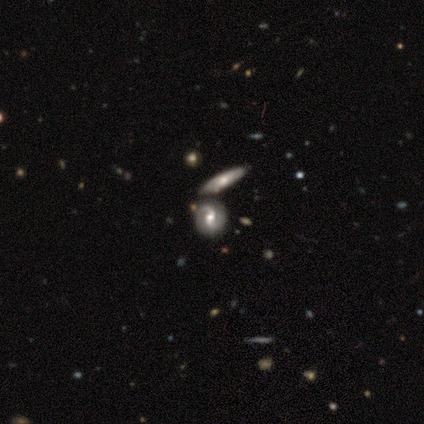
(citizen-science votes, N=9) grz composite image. It shows a featured or disk galaxy (89%) with no bar (71%), 2 (100%) medium (50%, tied with loose) spiral arms (86%) and a moderate central bulge (71%). Merging: none (44%).